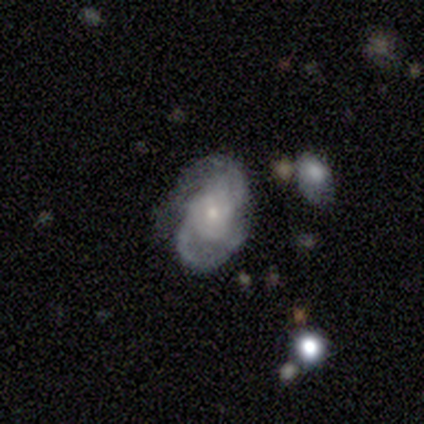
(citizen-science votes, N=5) Morphology: type=featured or disk (80%); edge-on=no (100%); bar=no (75%); spiral arms=yes (100%); winding=medium (50%); arm count=2 (75%); bulge=moderate (75%); merging=none (60%).